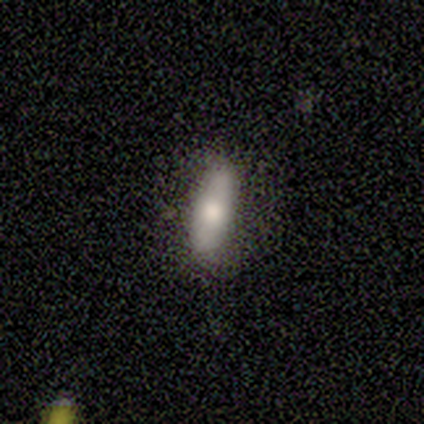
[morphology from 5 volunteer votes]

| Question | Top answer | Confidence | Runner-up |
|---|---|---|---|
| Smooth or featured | smooth | 80% | star or artifact (20%) |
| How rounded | in between | 75% | cigar-shaped (25%) |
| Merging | none | 100% | — |